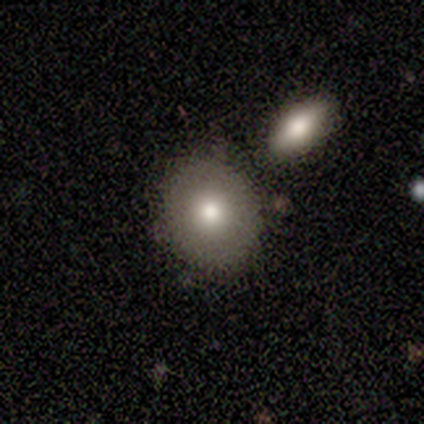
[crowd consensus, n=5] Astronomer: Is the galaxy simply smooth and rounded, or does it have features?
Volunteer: smooth — 80%.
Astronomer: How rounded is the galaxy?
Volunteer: round — 75%.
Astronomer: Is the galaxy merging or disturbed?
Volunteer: none — 80%.